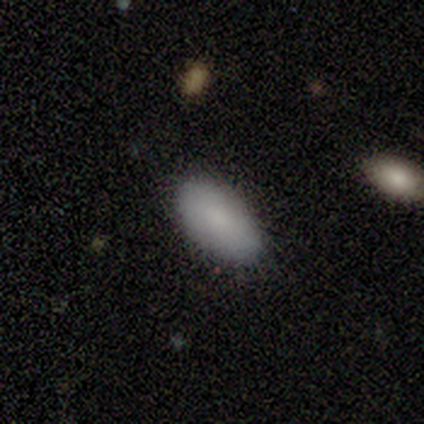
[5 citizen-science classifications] Smooth or featured? smooth (80%)
How rounded? in between (100%)
Merging? none (80%)